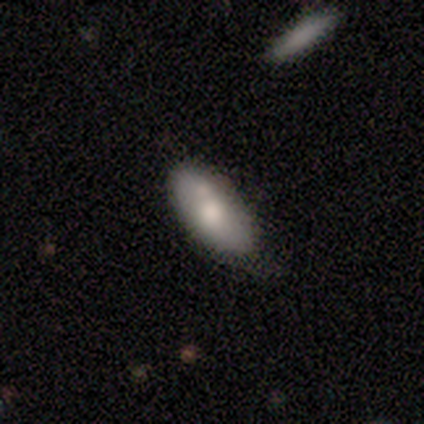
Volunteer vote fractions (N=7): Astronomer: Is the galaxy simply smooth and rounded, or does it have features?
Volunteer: smooth — 86%.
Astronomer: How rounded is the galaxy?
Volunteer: in between — 83%.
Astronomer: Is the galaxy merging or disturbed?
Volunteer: minor disturbance — 57% (runner-up: none, 43%).